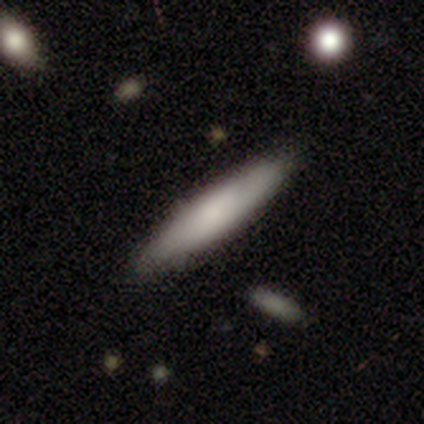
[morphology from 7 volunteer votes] This is possibly a smooth galaxy (57%). How rounded: possibly in between (50%, tied with cigar-shaped). Merging: clearly none (83%).